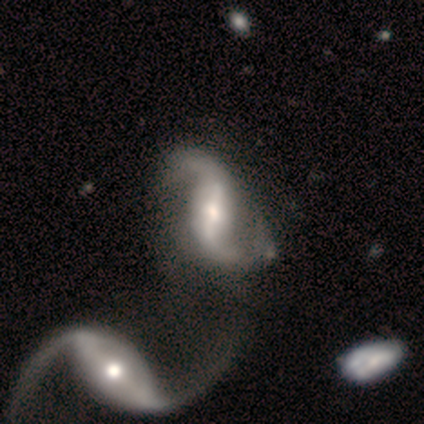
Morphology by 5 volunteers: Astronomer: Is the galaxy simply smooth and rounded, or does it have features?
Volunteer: featured or disk — 100%.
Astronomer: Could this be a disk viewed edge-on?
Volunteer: no — 100%.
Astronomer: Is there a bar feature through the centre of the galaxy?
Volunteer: strong — 80%.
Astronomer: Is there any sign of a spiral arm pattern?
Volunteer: yes — 80%.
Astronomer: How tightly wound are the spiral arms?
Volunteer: loose — 100%.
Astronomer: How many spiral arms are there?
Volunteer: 2 — 100%.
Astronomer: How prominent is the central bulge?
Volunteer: large — 40%, tied with moderate at 40%.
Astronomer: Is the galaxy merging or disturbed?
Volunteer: merger — 60%.